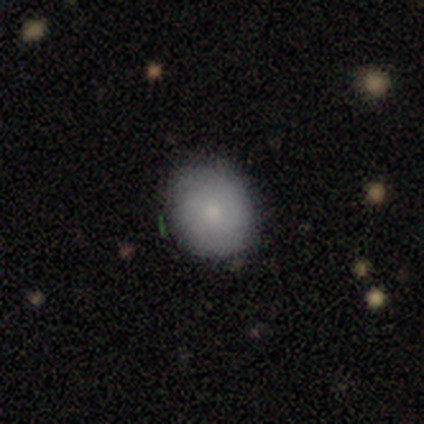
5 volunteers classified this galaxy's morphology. Smooth or featured? 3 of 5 (60%) said featured or disk. Edge-on disk? 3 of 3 (100%) said no. Bar? 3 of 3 (100%) said no. Spiral arms? 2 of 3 (67%) said yes. Spiral winding? 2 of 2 (100%) said tight. Spiral arm count? 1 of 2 (50%, tied with can't tell) said 2. Bulge size? 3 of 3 (100%) said small. Merging? 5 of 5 (100%) said none.